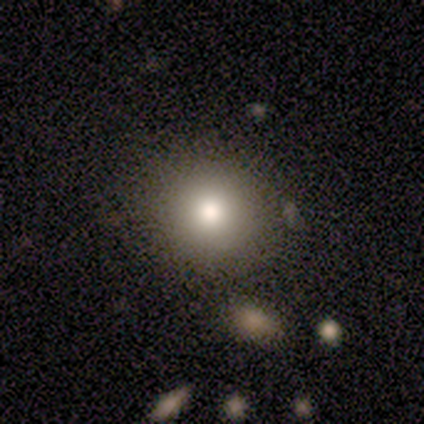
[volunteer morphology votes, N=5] smooth 80%, star or artifact 20%, featured or disk 0%. Down the decision tree: how rounded — round (100%); merging — none (75%).